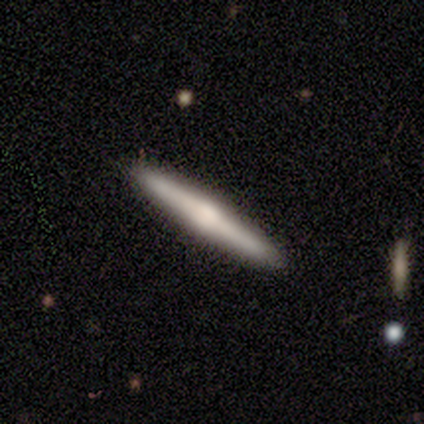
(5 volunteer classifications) Volunteers were most divided on "smooth or featured": featured or disk: 60%, smooth: 40%, star or artifact: 0%. More confident: edge-on disk — yes (100%); edge-on bulge — rounded (100%); merging — none (100%).